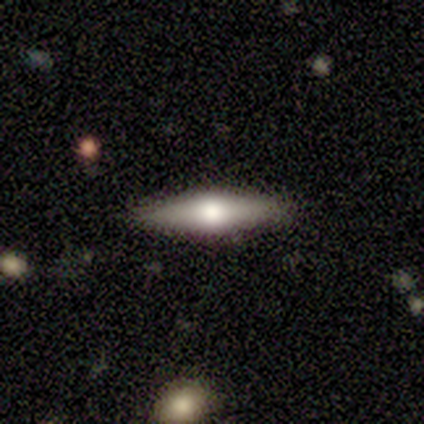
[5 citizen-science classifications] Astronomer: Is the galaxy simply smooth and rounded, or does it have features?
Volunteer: featured or disk — 60% (runner-up: smooth, 40%).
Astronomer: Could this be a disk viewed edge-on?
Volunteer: yes — 100%.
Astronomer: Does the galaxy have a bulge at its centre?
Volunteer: rounded — 100%.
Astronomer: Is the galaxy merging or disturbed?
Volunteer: none — 60% (runner-up: minor disturbance, 40%).